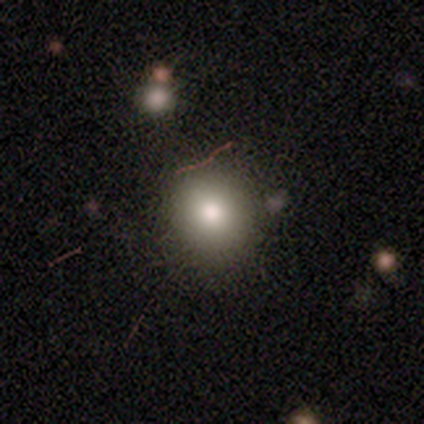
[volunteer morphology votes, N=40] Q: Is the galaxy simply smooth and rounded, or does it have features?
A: smooth — 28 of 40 (70%).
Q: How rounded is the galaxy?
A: round — 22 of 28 (79%).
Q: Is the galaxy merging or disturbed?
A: none — 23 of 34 (68%).